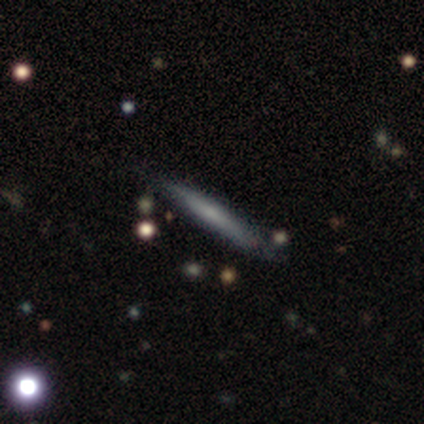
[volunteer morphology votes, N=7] Smooth or featured?
  - featured or disk: 100% *
  - smooth: 0%
  - star or artifact: 0%
Edge-on disk?
  - yes: 86% *
  - no: 14%
Edge-on bulge?
  - none: 67% *
  - boxy: 33%
  - rounded: 0%
Merging?
  - none: 86% *
  - minor disturbance: 14%
  - major disturbance: 0%
  - merger: 0%